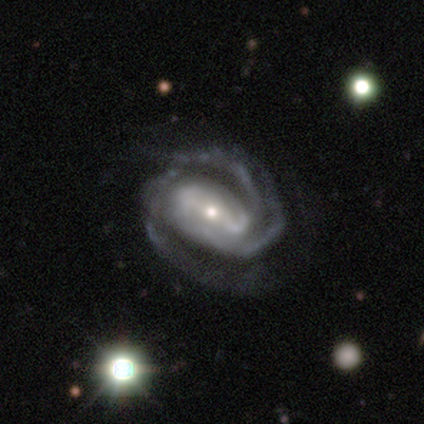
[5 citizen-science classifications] Smooth or featured? featured or disk (100%)
Edge-on disk? no (100%)
Bar? strong (40%, tied with no)
Spiral arms? yes (100%)
Spiral winding? tight (60%)
Spiral arm count? 2 (60%)
Bulge size? moderate (60%)
Merging? none (60%)